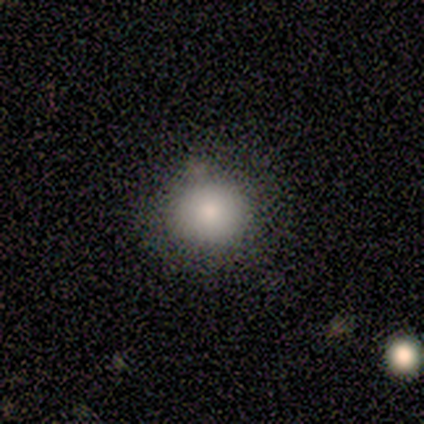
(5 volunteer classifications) Smooth or featured: smooth — 100%
How rounded: round — 100%
Merging: none — 80% (minor disturbance — 20%)